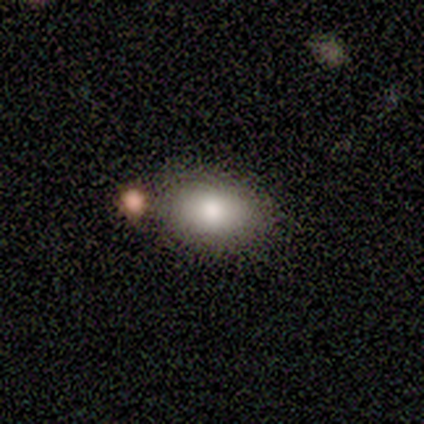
Smooth or featured: smooth — 100%
How rounded: in between — 100%
Merging: none — 80% (minor disturbance — 20%)